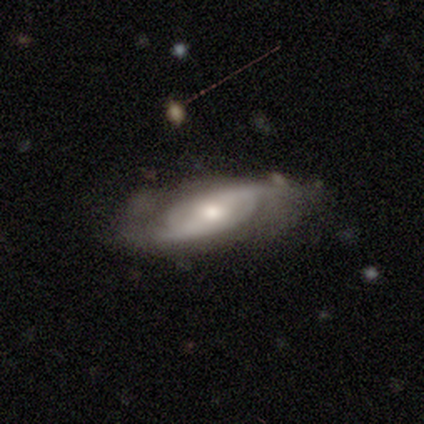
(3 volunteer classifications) Smooth or featured? 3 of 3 (100%) said featured or disk. Edge-on disk? 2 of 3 (67%) said no. Bar? 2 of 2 (100%) said strong. Spiral arms? 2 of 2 (100%) said yes. Spiral winding? 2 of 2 (100%) said loose. Spiral arm count? 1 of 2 (50%, tied with can't tell) said 2. Bulge size? 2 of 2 (100%) said moderate. Merging? 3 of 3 (100%) said none.